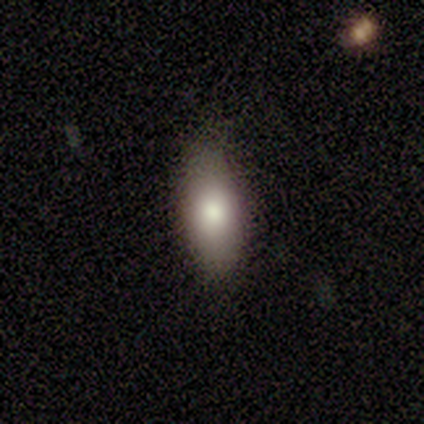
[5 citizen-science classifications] This appears to be a smooth galaxy with no disk features (100%) that is in between round and cigar-shaped (80%). Merging: none (100%).